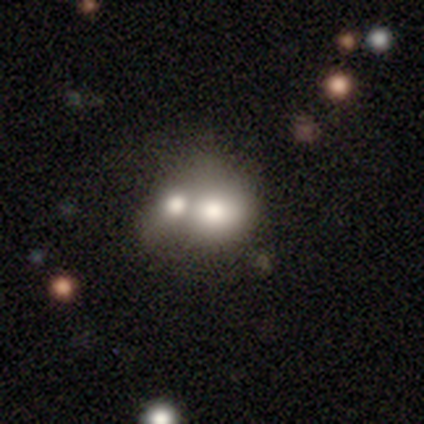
smooth-or-featured: smooth: 80% | featured or disk: 20% | star or artifact: 0%
  how-rounded: in between: 75% | round: 25% | cigar-shaped: 0%
  merging: merger: 80% | none: 20% | minor disturbance: 0% | major disturbance: 0%